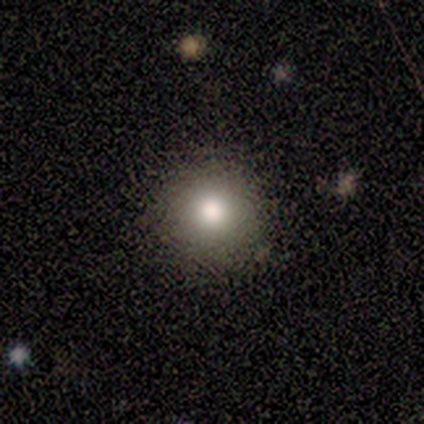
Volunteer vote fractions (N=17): Smooth or featured?
  - smooth: 76% *
  - featured or disk: 12%
  - star or artifact: 12%
How rounded?
  - round: 85% *
  - in between: 15%
  - cigar-shaped: 0%
Merging?
  - none: 80% *
  - minor disturbance: 20%
  - major disturbance: 0%
  - merger: 0%